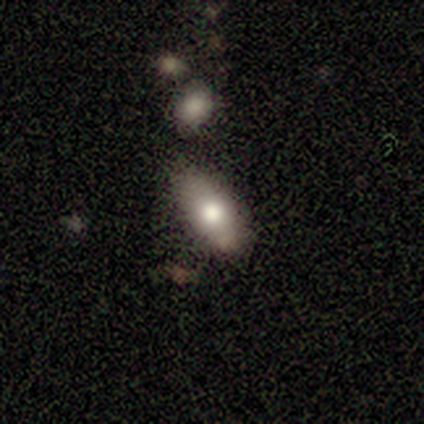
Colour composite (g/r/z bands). It shows a smooth galaxy with no disk features (60%) that is in between round and cigar-shaped (67%). Merging: none (100%).